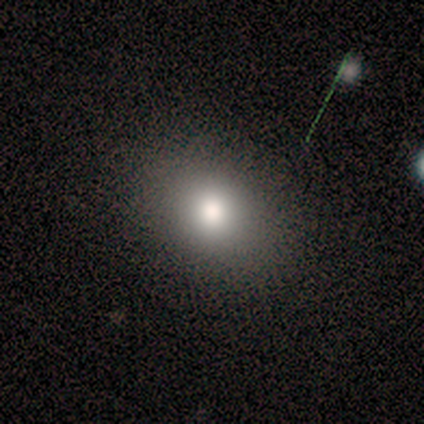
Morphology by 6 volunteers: smooth-or-featured: featured or disk: 67% | smooth: 17% | star or artifact: 17%
  disk-edge-on: no: 100% | yes: 0%
    bar: no: 100% | strong: 0% | weak: 0%
    has-spiral-arms: no: 100% | yes: 0%
    bulge-size: moderate: 75% | large: 25% | dominant: 0% | small: 0% | none: 0%
  merging: none: 80% | minor disturbance: 20% | major disturbance: 0% | merger: 0%